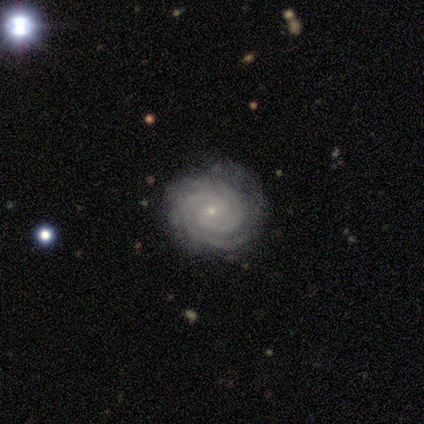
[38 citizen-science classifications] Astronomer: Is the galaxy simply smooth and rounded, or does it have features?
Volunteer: featured or disk — 89%.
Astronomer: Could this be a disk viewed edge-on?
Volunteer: no — 100%.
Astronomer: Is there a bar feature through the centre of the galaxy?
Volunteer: no — 65%.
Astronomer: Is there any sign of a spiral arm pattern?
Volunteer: yes — 100%.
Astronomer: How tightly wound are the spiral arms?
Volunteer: tight — 79%.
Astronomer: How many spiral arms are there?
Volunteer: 2 — 50% (runner-up: 3, 29%).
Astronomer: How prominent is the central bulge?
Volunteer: small — 82%.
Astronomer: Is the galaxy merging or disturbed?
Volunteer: none — 83%.